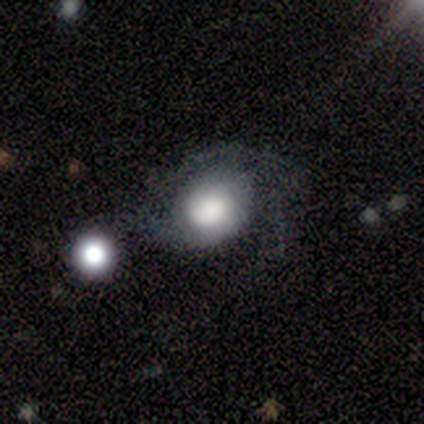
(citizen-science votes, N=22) Overall: smooth (55%; featured or disk 41%). How rounded: round (75%). Merging: none (33%; major disturbance 29%).